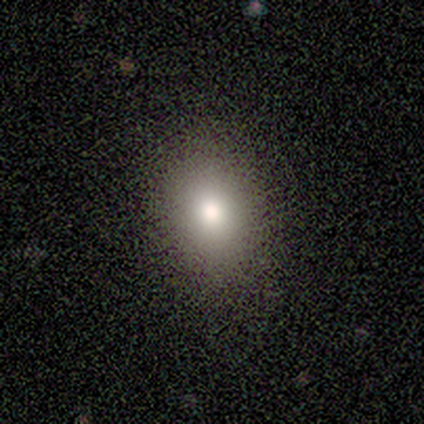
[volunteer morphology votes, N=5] A smooth galaxy with no disk features (100%) that is in between round and cigar-shaped (60%).

Vote fractions:
- Smooth or featured? smooth: 100% / featured or disk: 0% / star or artifact: 0%
- How rounded? in between: 60% / round: 40% / cigar-shaped: 0%
- Merging? none: 100% / minor disturbance: 0% / major disturbance: 0% / merger: 0%